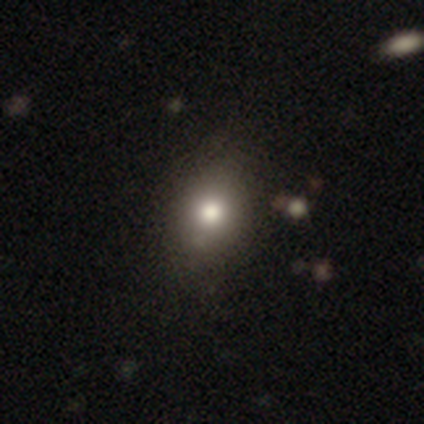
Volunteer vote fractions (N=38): This is clearly a smooth galaxy (92%). How rounded: likely in between (60%). Merging: likely none (72%).